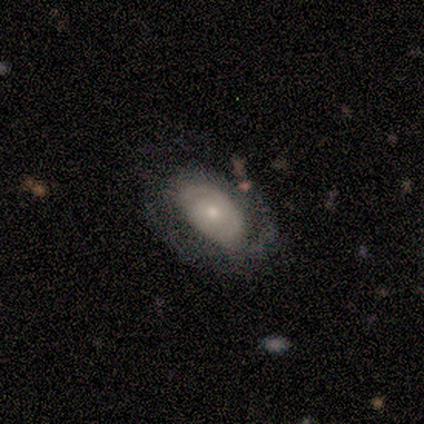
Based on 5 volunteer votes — Volunteers were most divided on "smooth or featured": smooth: 60%, featured or disk: 40%, star or artifact: 0%. More confident: how rounded — in between (100%); merging — none (60%).